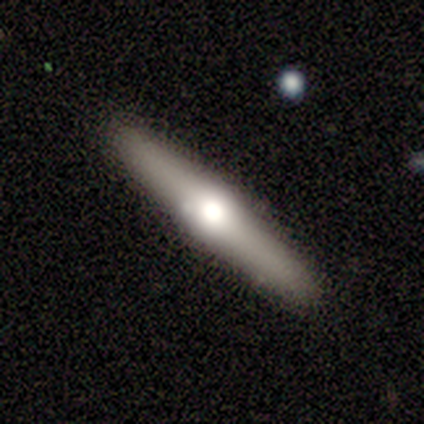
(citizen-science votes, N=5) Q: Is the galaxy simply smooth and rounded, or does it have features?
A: featured or disk — 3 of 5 (60%).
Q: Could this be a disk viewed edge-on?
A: yes — 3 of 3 (100%).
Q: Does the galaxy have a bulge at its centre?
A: rounded — 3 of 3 (100%).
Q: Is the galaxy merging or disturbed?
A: none — 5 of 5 (100%).